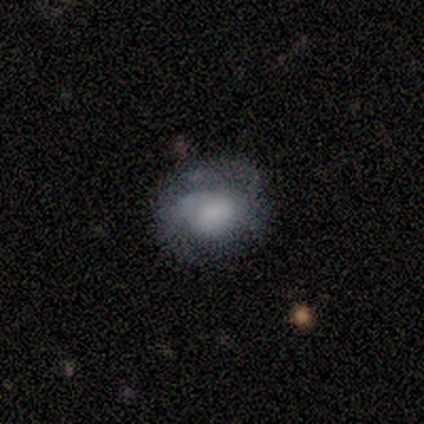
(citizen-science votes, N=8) smooth_or_featured: smooth (p=0.50) [tied with: featured or disk p=0.50]
how_rounded: in between (p=0.75) [alt: round p=0.25]
merging: none (p=0.75) [alt: minor disturbance p=0.12]